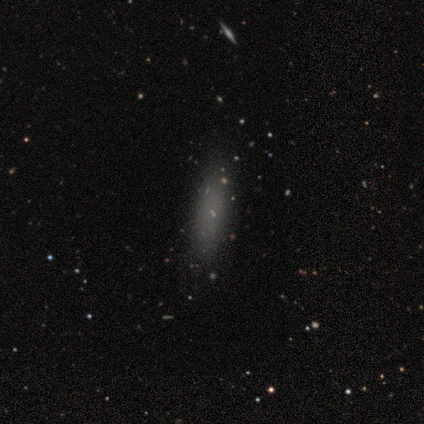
Volunteers were most divided on "how rounded": cigar-shaped: 57%, in between: 43%, round: 0%. More confident: merging — none (100%); smooth or featured — smooth (88%).